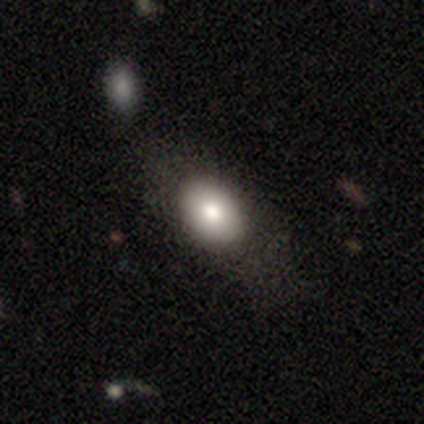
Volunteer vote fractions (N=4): Smooth or featured?
  - smooth: 100% *
  - featured or disk: 0%
  - star or artifact: 0%
How rounded?
  - in between: 100% *
  - round: 0%
  - cigar-shaped: 0%
Merging?
  - none: 75% *
  - merger: 25%
  - minor disturbance: 0%
  - major disturbance: 0%